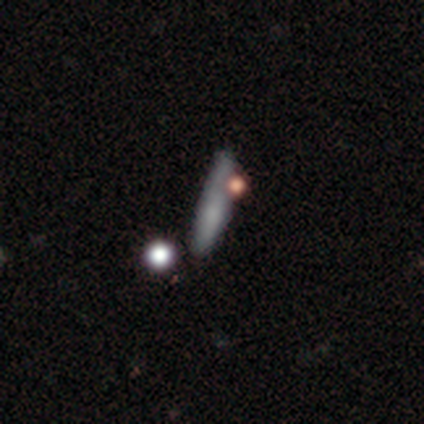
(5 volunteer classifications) Q: Smooth or featured?
A: smooth (60%); runner-up: featured or disk (40%)
Q: How rounded?
A: cigar-shaped (100%)
Q: Merging?
A: none (60%); runner-up: minor disturbance (20%)